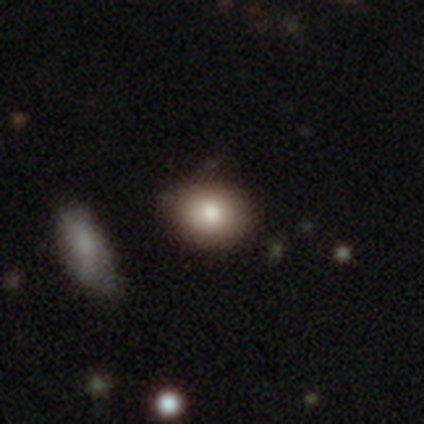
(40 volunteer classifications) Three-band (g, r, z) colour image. It shows a smooth galaxy with no disk features (78%) that is round (68%). Merging: none (81%).